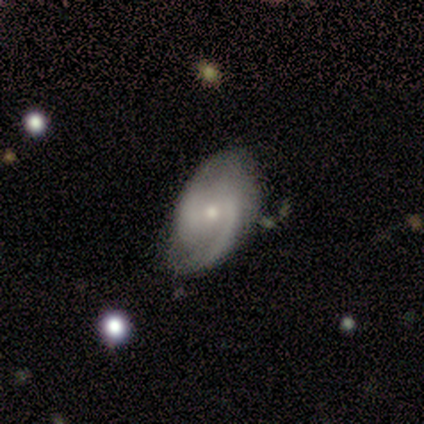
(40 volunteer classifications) Overall: featured or disk (78%). Edge-on disk: no (94%). Bar: weak (52%; no 38%). Spiral arms: yes (90%). Spiral arm count: 2 (88%). Spiral winding: medium (58%; tight 31%). Bulge size: small (62%; moderate 34%). Merging: none (71%).